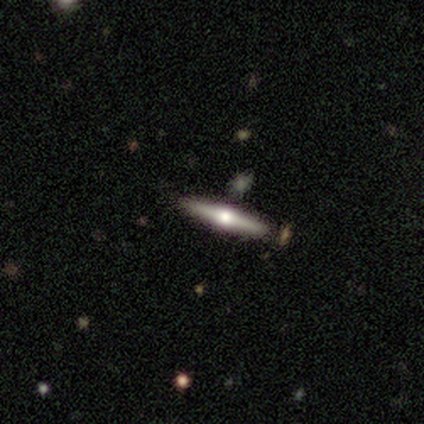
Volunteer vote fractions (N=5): A featured or disk galaxy (60%) viewed edge-on (100%) with a rounded central bulge (100%). Merging: none (100%).